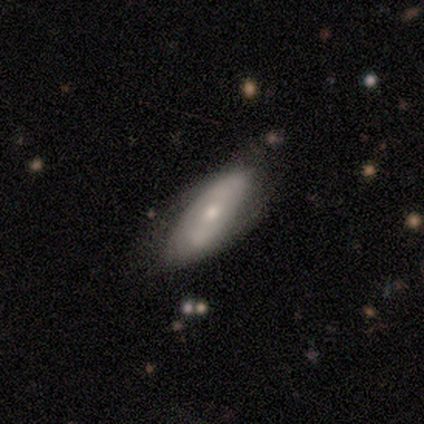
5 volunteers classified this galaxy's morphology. This appears to be a smooth galaxy with no disk features (80%) that is in between round and cigar-shaped (75%). Merging: none (60%).